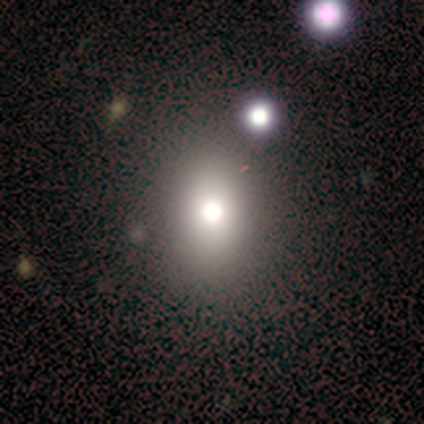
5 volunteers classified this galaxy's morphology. Smooth or featured: smooth — 80% (featured or disk — 20%)
How rounded: in between — 75% (round — 25%)
Merging: none — 80% (merger — 20%)